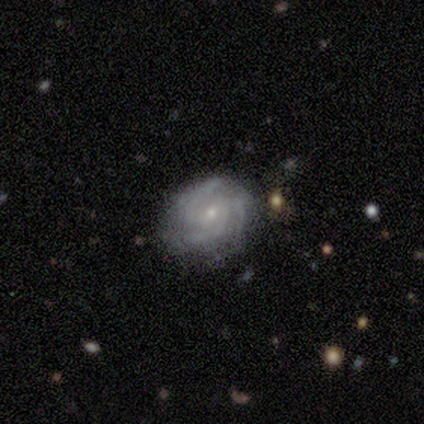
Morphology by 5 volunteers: type=featured or disk (80%); edge-on=no (100%); bar=weak (75%); spiral arms=yes (100%); winding=medium (75%); arm count=3 (50%); bulge=small (75%); merging=none (100%).